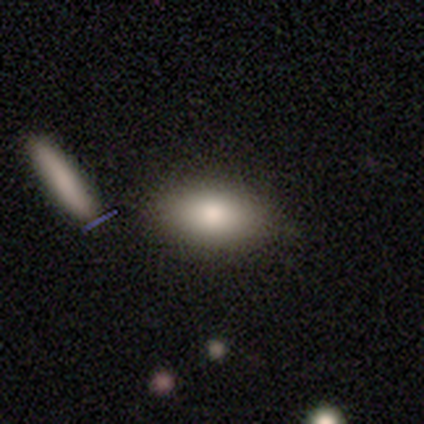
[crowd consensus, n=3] smooth_or_featured: smooth (p=0.67) [alt: star or artifact p=0.33]
how_rounded: in between (p=1.00)
merging: none (p=1.00)